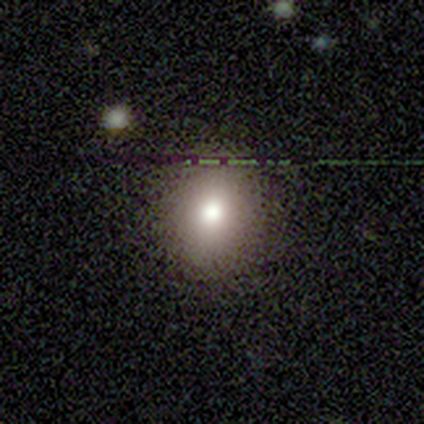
Q: Smooth or featured?
A: smooth (80%); runner-up: star or artifact (20%)
Q: How rounded?
A: round (100%)
Q: Merging?
A: none (100%)